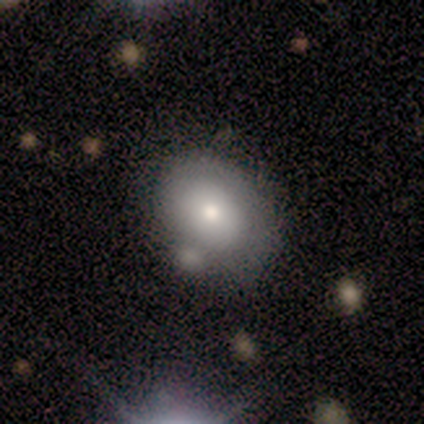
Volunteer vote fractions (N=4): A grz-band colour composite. It shows a smooth galaxy with no disk features (75%) that is in between round and cigar-shaped (100%). Merging: none (100%).